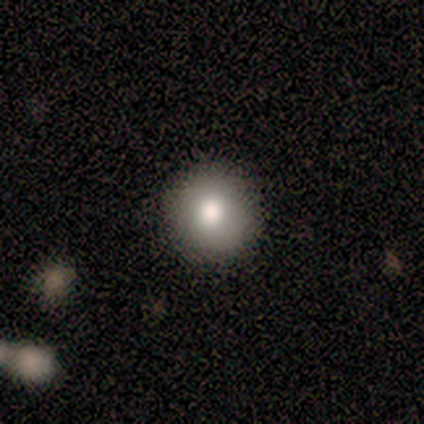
Q: Smooth or featured?
A: smooth (83%); runner-up: star or artifact (17%)
Q: How rounded?
A: round (100%)
Q: Merging?
A: none (100%)